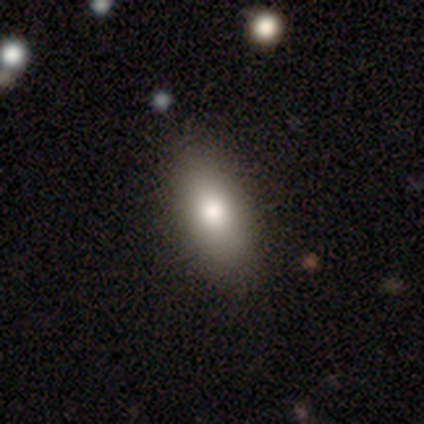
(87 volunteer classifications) Volunteers were most divided on "smooth or featured": smooth: 80%, featured or disk: 14%, star or artifact: 6%. More confident: merging — none (84%); how rounded — in between (80%).